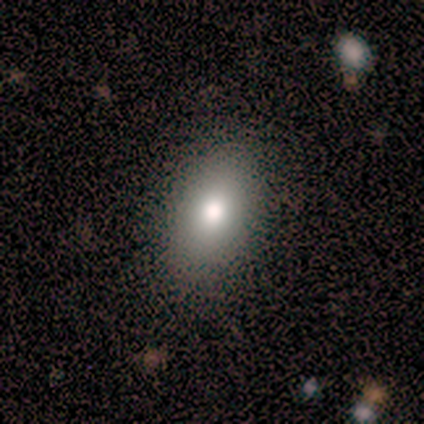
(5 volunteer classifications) Smooth or featured? smooth (100%)
How rounded? in between (80%)
Merging? none (100%)